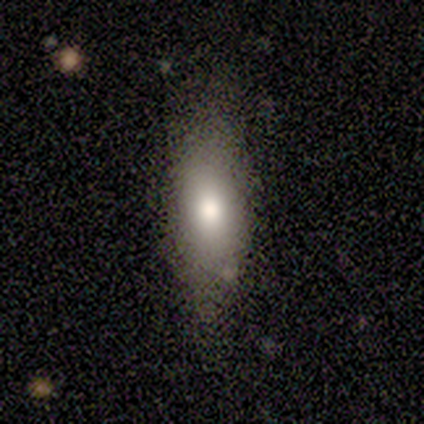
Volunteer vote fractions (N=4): Smooth or featured? 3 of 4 (75%) said smooth. How rounded? 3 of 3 (100%) said in between. Merging? 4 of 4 (100%) said none.